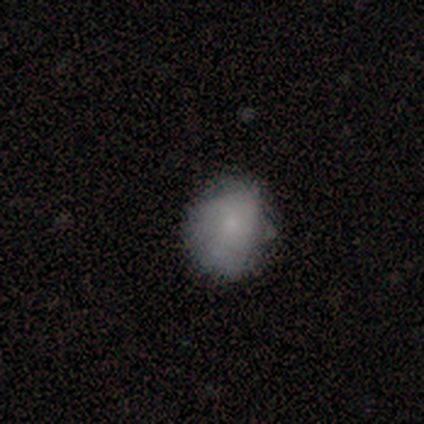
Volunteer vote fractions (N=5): Smooth or featured? 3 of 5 (60%) said smooth. How rounded? 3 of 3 (100%) said round. Merging? 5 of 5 (100%) said none.